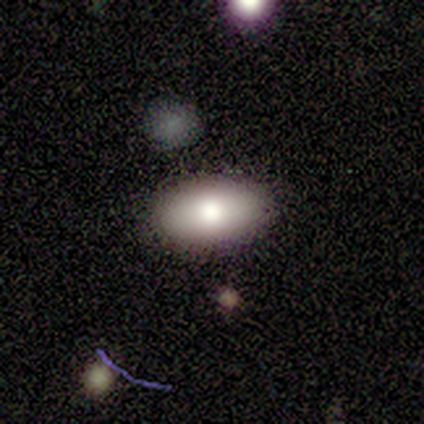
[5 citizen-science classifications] Q: Smooth or featured?
A: smooth (80%); runner-up: star or artifact (20%)
Q: How rounded?
A: in between (100%)
Q: Merging?
A: none (100%)